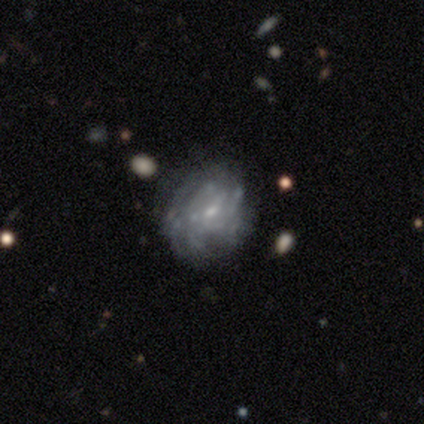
featured or disk 100%, smooth 0%, star or artifact 0%. Down the decision tree: edge-on disk — no (100%); bar — weak (60%); spiral arms — yes (100%); spiral arm count — can't tell (100%); spiral winding — tight (80%); bulge size — small (100%); merging — none (40%, tied with minor disturbance).